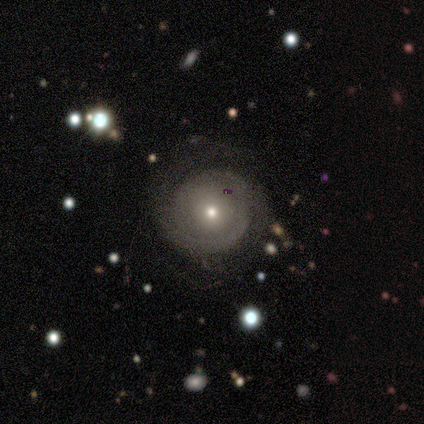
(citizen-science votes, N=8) Morphology: type=featured or disk (88%); edge-on=no (86%); bar=no (67%); spiral arms=yes (100%); winding=tight (50%); arm count=can't tell (50%); bulge=small (83%); merging=none (88%).